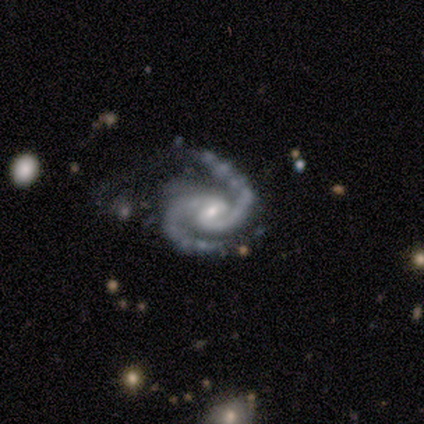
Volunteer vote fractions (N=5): Smooth or featured?
  - featured or disk: 100% *
  - smooth: 0%
  - star or artifact: 0%
Edge-on disk?
  - no: 100% *
  - yes: 0%
Bar?
  - weak: 40% * (tied)
  - no: 40% * (tied)
  - strong: 20%
Spiral arms?
  - yes: 100% *
  - no: 0%
Spiral winding?
  - medium: 80% *
  - tight: 20%
  - loose: 0%
Spiral arm count?
  - 2: 100% *
  - 1: 0%
  - 3: 0%
  - 4: 0%
  - more than 4: 0%
  - can't tell: 0%
Bulge size?
  - moderate: 60% *
  - small: 40%
  - dominant: 0%
  - large: 0%
  - none: 0%
Merging?
  - none: 60% *
  - minor disturbance: 20%
  - merger: 20%
  - major disturbance: 0%